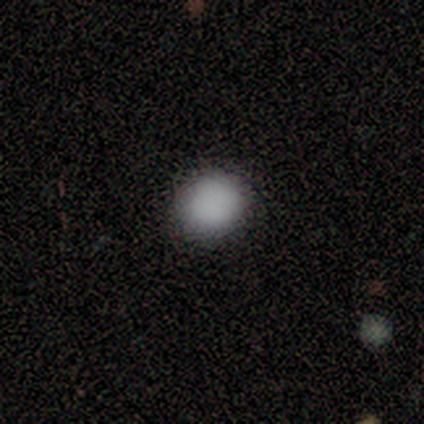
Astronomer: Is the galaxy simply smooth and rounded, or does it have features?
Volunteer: smooth — 100%.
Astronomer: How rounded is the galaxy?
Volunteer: round — 100%.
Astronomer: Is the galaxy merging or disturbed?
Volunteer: none — 100%.